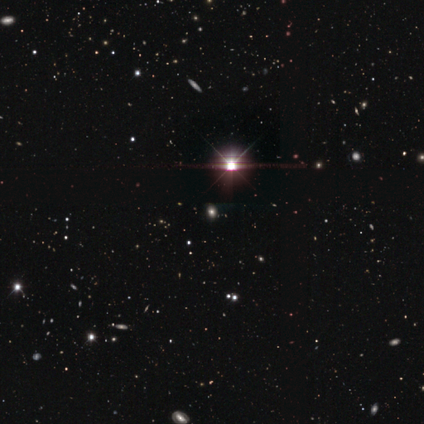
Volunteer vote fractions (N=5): smooth_or_featured: star or artifact (p=1.00)